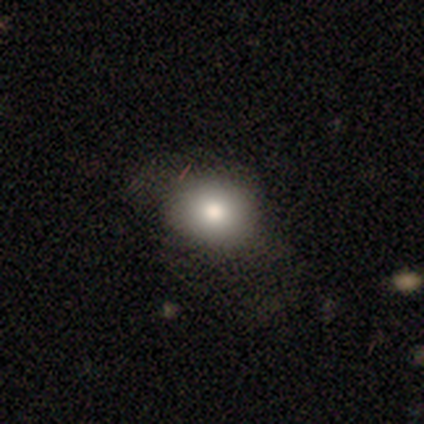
smooth-or-featured: smooth: 77% | featured or disk: 11% | star or artifact: 11%
  how-rounded: in between: 56% | round: 44% | cigar-shaped: 0%
  merging: none: 61% | minor disturbance: 23% | major disturbance: 16% | merger: 0%